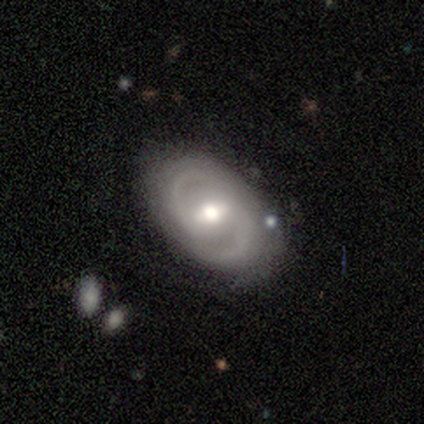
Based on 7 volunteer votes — smooth-or-featured: featured or disk: 100% | smooth: 0% | star or artifact: 0%
  disk-edge-on: no: 100% | yes: 0%
    bar: weak: 71% | strong: 29% | no: 0%
    has-spiral-arms: yes: 100% | no: 0%
      spiral-winding: medium: 43% | tight: 29% | loose: 29%
      spiral-arm-count: 2: 86% | 1: 14% | 3: 0% | 4: 0% | more than 4: 0% | can't tell: 0%
    bulge-size: moderate: 86% | large: 14% | dominant: 0% | small: 0% | none: 0%
  merging: none: 71% | major disturbance: 29% | minor disturbance: 0% | merger: 0%